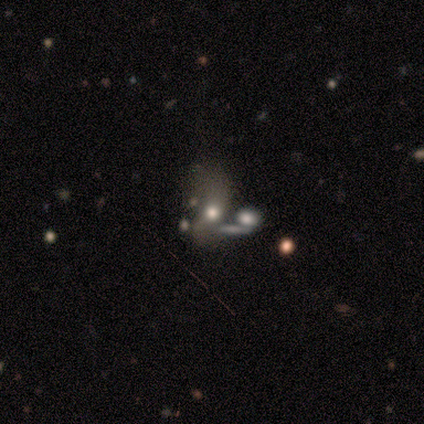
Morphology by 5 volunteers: A smooth galaxy with no disk features (60%) that is round (67%). Merging: major disturbance (75%).